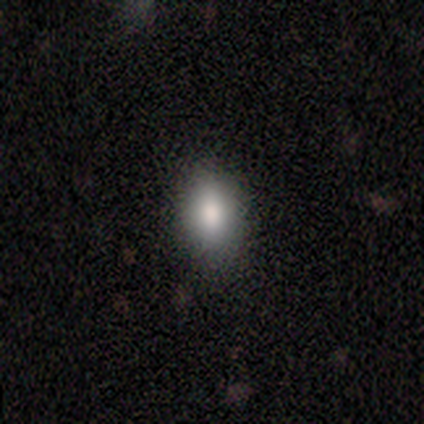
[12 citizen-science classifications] Overall: smooth (75%). How rounded: in between (89%). Merging: none (100%).